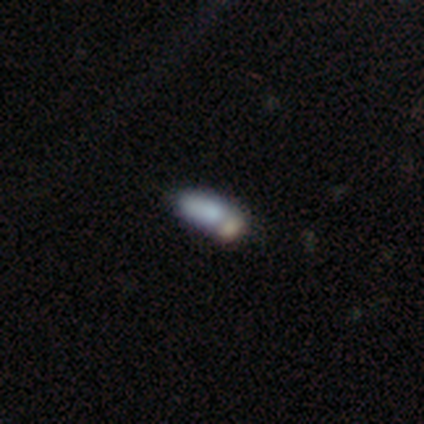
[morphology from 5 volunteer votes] smooth 80%, featured or disk 20%, star or artifact 0%. Down the decision tree: how rounded — in between (50%, tied with cigar-shaped); merging — minor disturbance (40%).